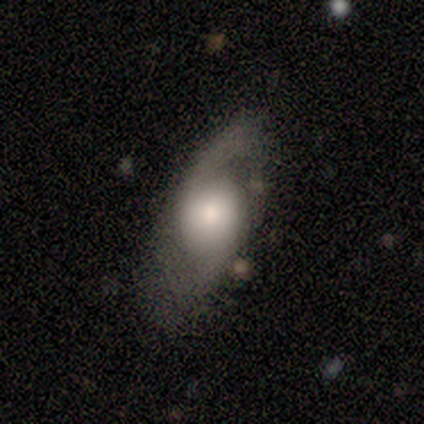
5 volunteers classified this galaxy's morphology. featured or disk 60%, smooth 20%, star or artifact 20%. Down the decision tree: edge-on disk — no (100%); bar — no (67%); spiral arms — yes (100%); spiral arm count — 2 (100%); spiral winding — loose (100%); bulge size — moderate (67%); merging — minor disturbance (50%).